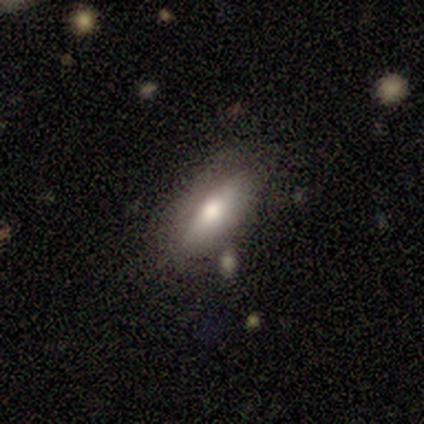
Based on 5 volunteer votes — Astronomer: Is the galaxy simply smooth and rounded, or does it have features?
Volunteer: featured or disk — 60% (runner-up: smooth, 40%).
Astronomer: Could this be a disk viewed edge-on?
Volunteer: yes — 67%.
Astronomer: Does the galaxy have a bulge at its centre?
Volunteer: rounded — 100%.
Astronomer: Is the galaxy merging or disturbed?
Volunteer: none — 80%.